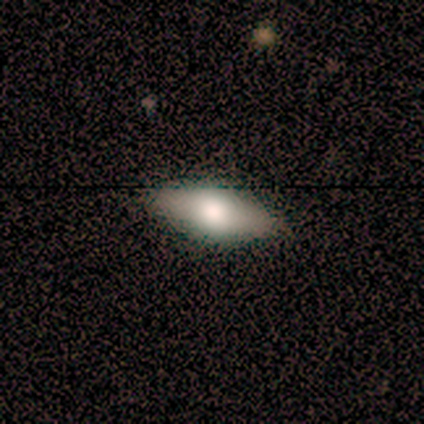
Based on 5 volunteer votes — Smooth or featured? 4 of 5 (80%) said smooth. How rounded? 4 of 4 (100%) said in between. Merging? 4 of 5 (80%) said none.